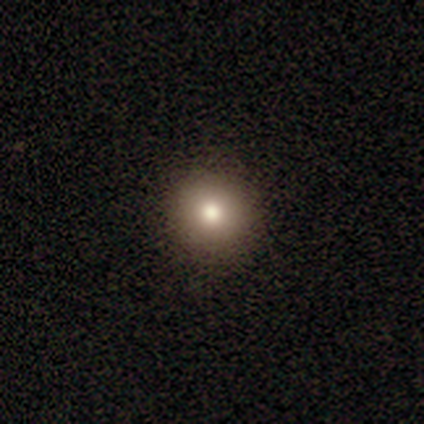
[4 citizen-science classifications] Smooth or featured? smooth (75%)
How rounded? round (100%)
Merging? none (100%)